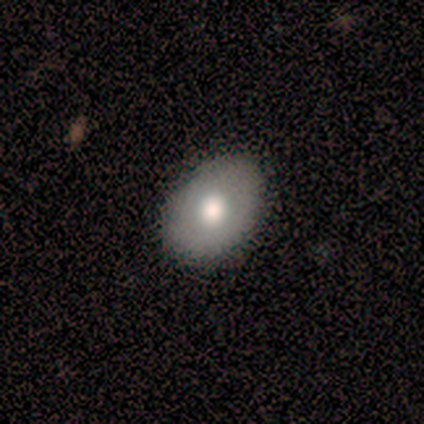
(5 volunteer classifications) Smooth or featured: smooth — 40% (tied with featured or disk — 40%)
How rounded: in between — 100%
Merging: none — 50% (minor disturbance — 25%)